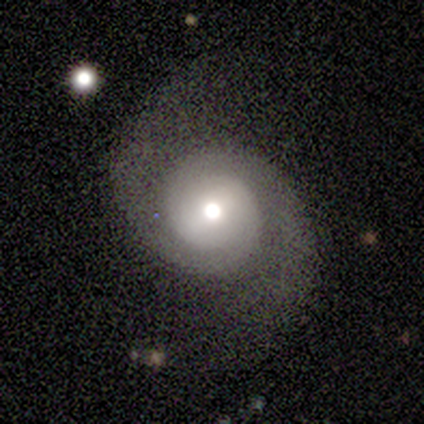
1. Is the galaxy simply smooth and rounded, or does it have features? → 100% featured or disk, 0% smooth, 0% star or artifact.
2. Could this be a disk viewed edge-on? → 100% no, 0% yes.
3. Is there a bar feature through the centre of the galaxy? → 80% weak, 20% strong, 0% no.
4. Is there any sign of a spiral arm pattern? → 100% yes, 0% no.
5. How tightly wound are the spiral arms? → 40% tight (tied), 40% loose (tied), 20% medium.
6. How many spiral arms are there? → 100% 2, 0% 1, 0% 3, 0% 4, 0% more than 4, 0% can't tell.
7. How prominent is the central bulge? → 60% moderate, 20% dominant, 20% large, 0% small, 0% none.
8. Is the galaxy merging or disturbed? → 80% none, 20% minor disturbance, 0% major disturbance, 0% merger.